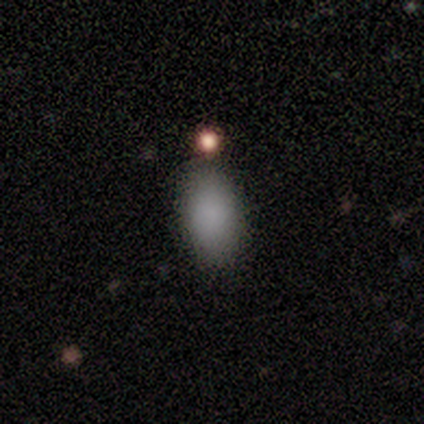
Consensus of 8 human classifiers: Morphology: type=smooth (100%); roundness=in between (88%); merging=none (75%).